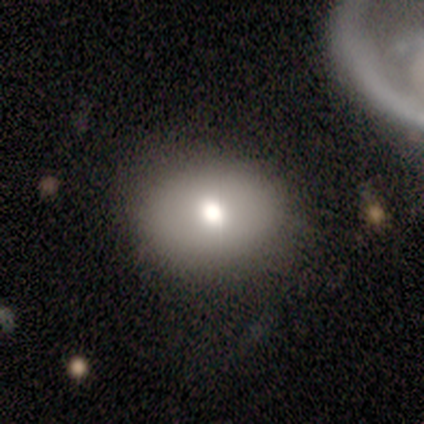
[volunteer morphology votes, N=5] smooth 80%, star or artifact 20%, featured or disk 0%. Down the decision tree: how rounded — round (50%, tied with in between); merging — none (75%).